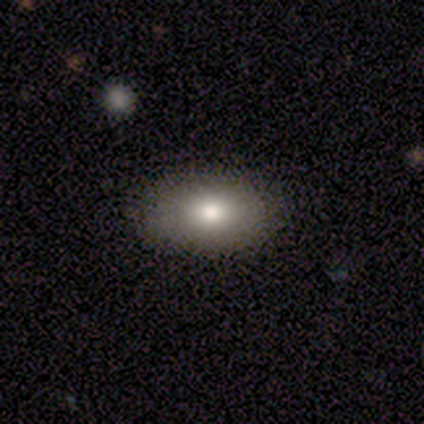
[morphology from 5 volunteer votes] Overall: smooth (80%). How rounded: in between (100%). Merging: none (100%).